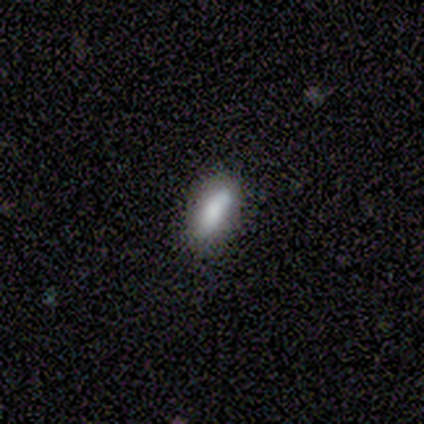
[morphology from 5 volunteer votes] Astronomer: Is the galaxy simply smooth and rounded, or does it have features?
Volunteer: smooth — 100%.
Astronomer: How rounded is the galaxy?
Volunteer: in between — 100%.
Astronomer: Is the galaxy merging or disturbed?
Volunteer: none — 100%.